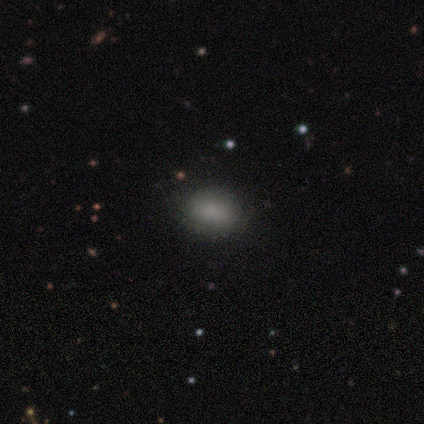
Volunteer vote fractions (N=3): This is clearly a smooth galaxy (100%). How rounded: likely in between (67%). Merging: clearly none (100%).